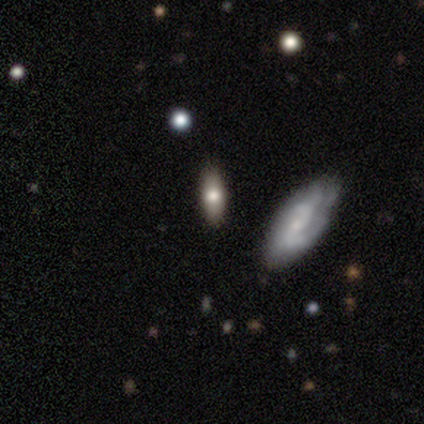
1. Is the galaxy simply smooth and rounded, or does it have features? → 51% smooth, 41% featured or disk, 8% star or artifact.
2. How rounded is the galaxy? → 68% in between, 26% cigar-shaped, 5% round.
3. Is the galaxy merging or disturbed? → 62% none, 21% minor disturbance, 12% merger, 6% major disturbance.